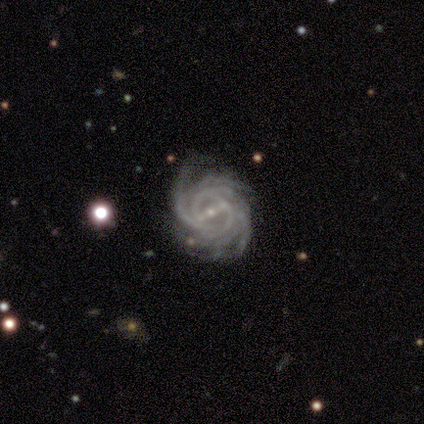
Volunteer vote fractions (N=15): A featured or disk galaxy (93%) with a strong bar (64%), more than 4 (43%) tight (71%) spiral arms (100%) and a small central bulge (79%). Merging: none (64%).